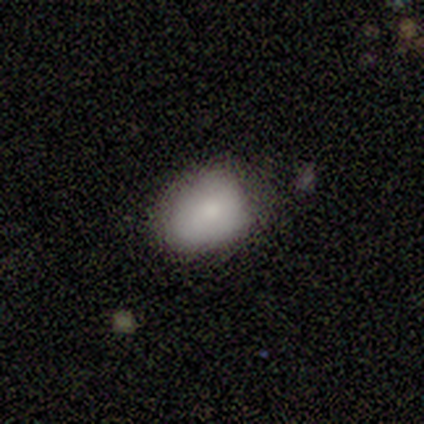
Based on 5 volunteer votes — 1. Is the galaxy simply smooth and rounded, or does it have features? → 80% smooth, 20% featured or disk, 0% star or artifact.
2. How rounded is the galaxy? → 50% in between, 25% round, 25% cigar-shaped.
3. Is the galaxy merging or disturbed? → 60% minor disturbance, 40% none, 0% major disturbance, 0% merger.